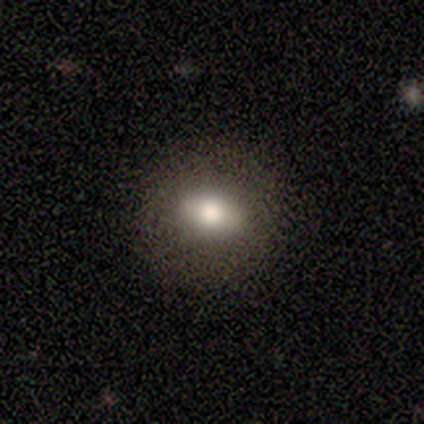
Smooth or featured: smooth — 100%
How rounded: in between — 100%
Merging: none — 100%